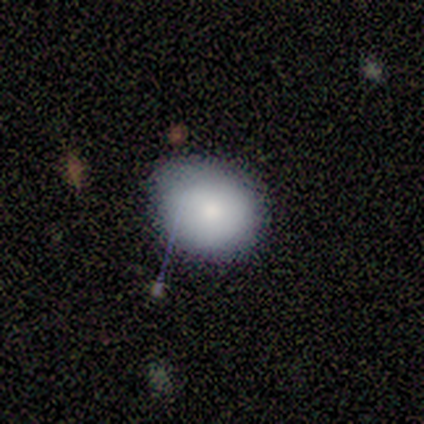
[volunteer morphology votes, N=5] Volunteers were most divided on "how rounded" (2-way tie): round: 50%, in between: 50%, cigar-shaped: 0%. More confident: merging — none (100%); smooth or featured — smooth (80%).